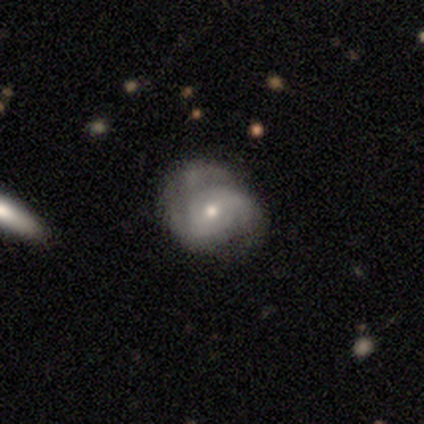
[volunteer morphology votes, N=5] Smooth or featured? featured or disk (60%)
Edge-on disk? no (100%)
Bar? no (67%)
Spiral arms? yes (100%)
Spiral winding? tight (33%, tied with medium and loose)
Spiral arm count? 2 (100%)
Bulge size? moderate (67%)
Merging? none (80%)